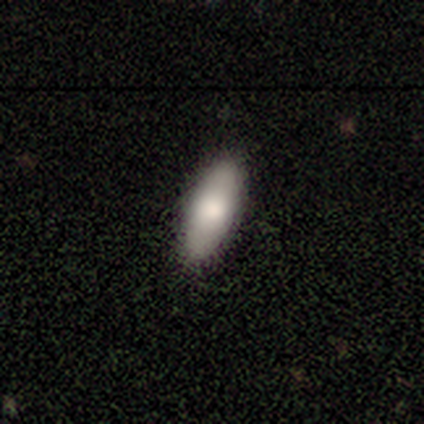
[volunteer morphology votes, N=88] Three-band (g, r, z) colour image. It shows a smooth galaxy with no disk features (80%) that is in between round and cigar-shaped (76%). Merging: none (88%).